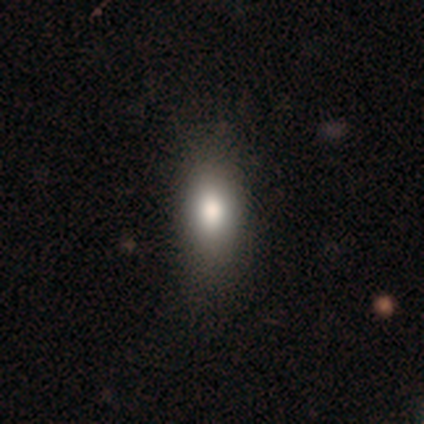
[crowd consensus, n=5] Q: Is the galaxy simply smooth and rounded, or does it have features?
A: smooth — 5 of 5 (100%).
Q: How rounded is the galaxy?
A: in between — 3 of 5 (60%).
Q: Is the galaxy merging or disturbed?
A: none — 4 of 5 (80%).